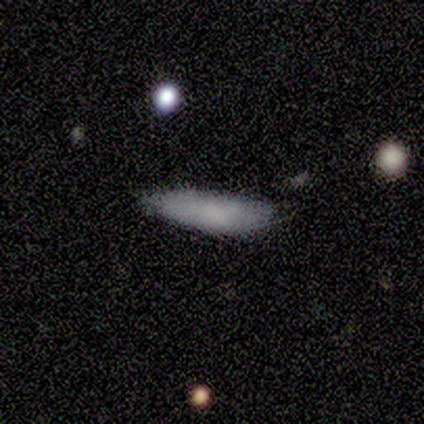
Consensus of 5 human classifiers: Smooth or featured: smooth — 60% (star or artifact — 40%)
How rounded: cigar-shaped — 100%
Merging: none — 100%